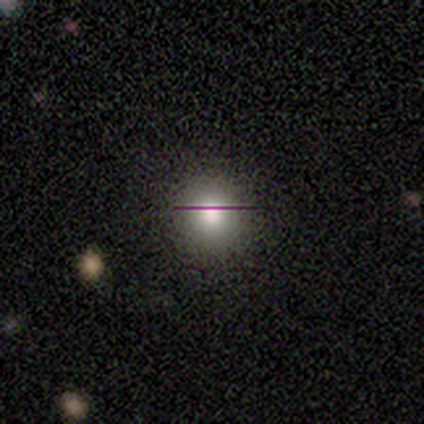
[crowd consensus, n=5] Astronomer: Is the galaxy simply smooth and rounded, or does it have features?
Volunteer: star or artifact — 60% (runner-up: smooth, 40%).